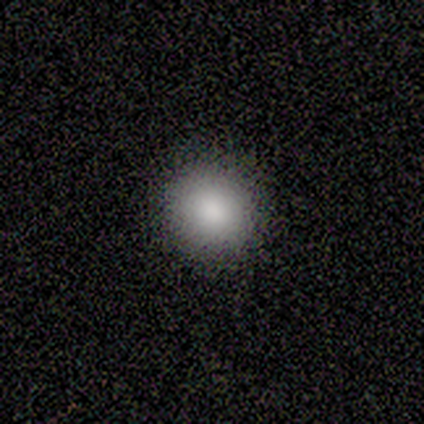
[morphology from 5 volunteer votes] Q: Smooth or featured?
A: smooth (100%)
Q: How rounded?
A: round (100%)
Q: Merging?
A: none (100%)